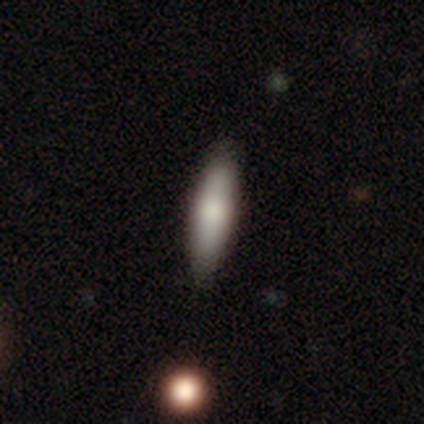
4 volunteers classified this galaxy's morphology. Overall: smooth (100%). How rounded: cigar-shaped (75%). Merging: none (100%).